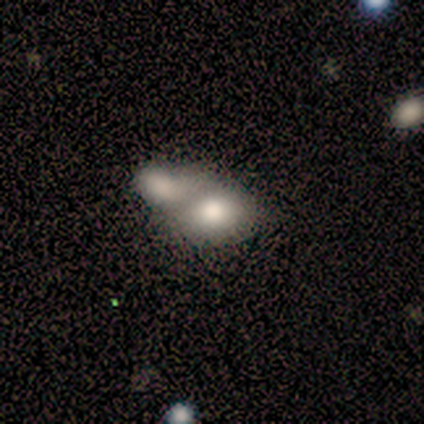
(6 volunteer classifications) Smooth or featured? smooth (83%)
How rounded? in between (80%)
Merging? merger (67%)